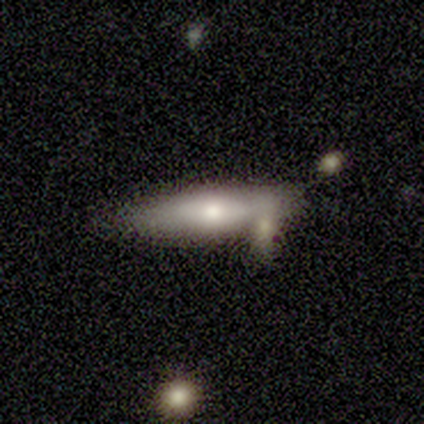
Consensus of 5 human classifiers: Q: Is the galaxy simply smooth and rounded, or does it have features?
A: featured or disk — 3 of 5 (60%).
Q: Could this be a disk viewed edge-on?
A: no — 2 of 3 (67%).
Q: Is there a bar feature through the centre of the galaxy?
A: weak — 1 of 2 (50%, tied with no).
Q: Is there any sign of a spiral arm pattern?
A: no — 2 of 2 (100%).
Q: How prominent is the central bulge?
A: moderate — 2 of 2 (100%).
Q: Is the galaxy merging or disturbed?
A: none — 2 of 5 (40%, tied with merger).